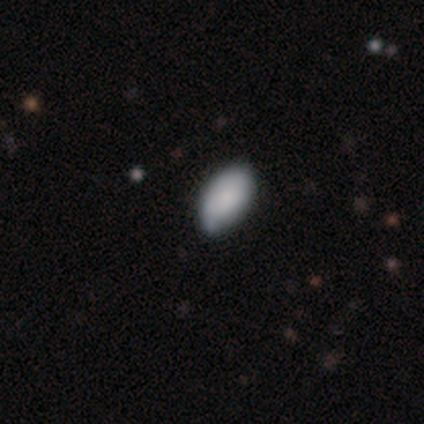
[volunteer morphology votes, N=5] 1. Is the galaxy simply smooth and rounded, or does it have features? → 60% smooth, 40% star or artifact, 0% featured or disk.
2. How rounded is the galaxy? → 100% in between, 0% round, 0% cigar-shaped.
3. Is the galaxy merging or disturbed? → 67% none, 33% minor disturbance, 0% major disturbance, 0% merger.